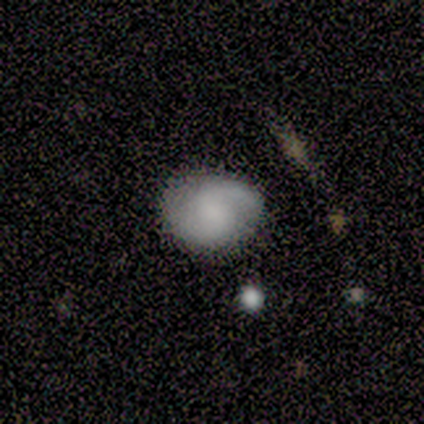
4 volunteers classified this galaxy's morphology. Smooth or featured? featured or disk (75%)
Edge-on disk? no (100%)
Bar? no (67%)
Spiral arms? yes (100%)
Spiral winding? medium (67%)
Spiral arm count? 1 (67%)
Bulge size? dominant (33%, tied with moderate and none)
Merging? none (100%)